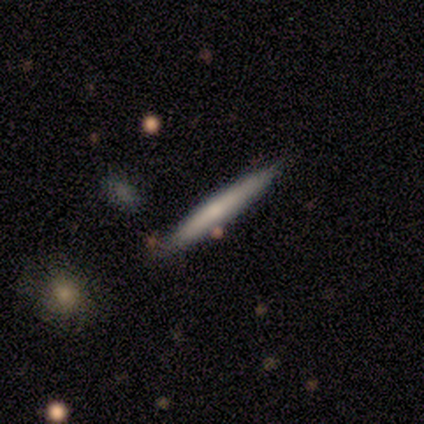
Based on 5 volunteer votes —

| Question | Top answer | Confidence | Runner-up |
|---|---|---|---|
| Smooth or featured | featured or disk | 80% | smooth (20%) |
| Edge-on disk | yes | 100% | — |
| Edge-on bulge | none | 50% | tied: rounded (50%) |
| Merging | none | 60% | minor disturbance (20%) |